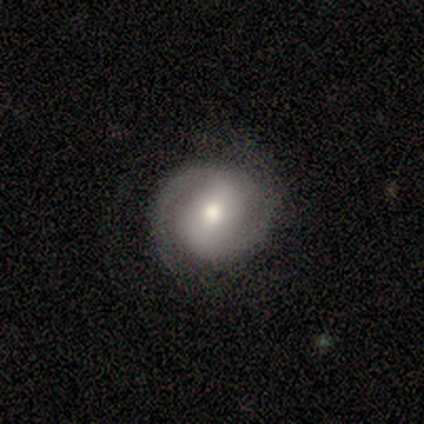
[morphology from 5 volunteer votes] Smooth or featured: featured or disk — 80% (smooth — 20%)
Edge-on disk: no — 100%
Bar: strong — 75% (no — 25%)
Spiral arms: yes — 75% (no — 25%)
Spiral winding: tight — 33% (tied with medium — 33%; loose — 33%)
Spiral arm count: 2 — 67% (1 — 33%)
Bulge size: moderate — 75% (small — 25%)
Merging: none — 60% (minor disturbance — 40%)